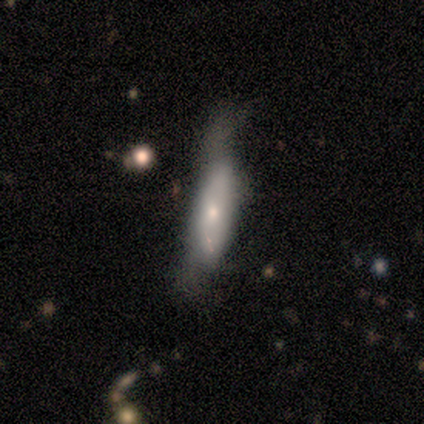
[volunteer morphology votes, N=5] Q: Smooth or featured?
A: smooth (100%)
Q: How rounded?
A: cigar-shaped (80%); runner-up: in between (20%)
Q: Merging?
A: none (60%); runner-up: minor disturbance (20%)